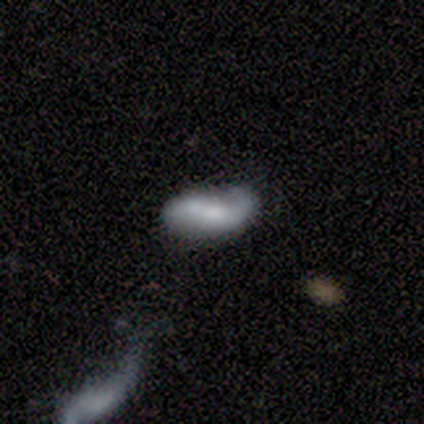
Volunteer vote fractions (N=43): Q: Smooth or featured?
A: featured or disk (65%); runner-up: smooth (30%)
Q: Edge-on disk?
A: no (93%); runner-up: yes (7%)
Q: Bar?
A: weak (54%); runner-up: no (31%)
Q: Spiral arms?
A: yes (81%); runner-up: no (19%)
Q: Spiral winding?
A: loose (48%); runner-up: tight (29%)
Q: Spiral arm count?
A: 2 (90%); runner-up: 1 (10%)
Q: Bulge size?
A: moderate (42%); runner-up: large (23%)
Q: Merging?
A: none (51%); runner-up: minor disturbance (27%)